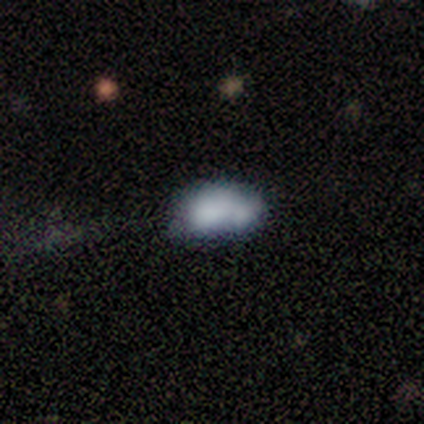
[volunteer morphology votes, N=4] Smooth or featured?
  - featured or disk: 75% *
  - star or artifact: 25%
  - smooth: 0%
Edge-on disk?
  - no: 100% *
  - yes: 0%
Bar?
  - no: 100% *
  - strong: 0%
  - weak: 0%
Spiral arms?
  - no: 100% *
  - yes: 0%
Bulge size?
  - dominant: 33% * (tied)
  - large: 33% * (tied)
  - small: 33% * (tied)
  - moderate: 0%
  - none: 0%
Merging?
  - minor disturbance: 33% * (tied)
  - major disturbance: 33% * (tied)
  - merger: 33% * (tied)
  - none: 0%